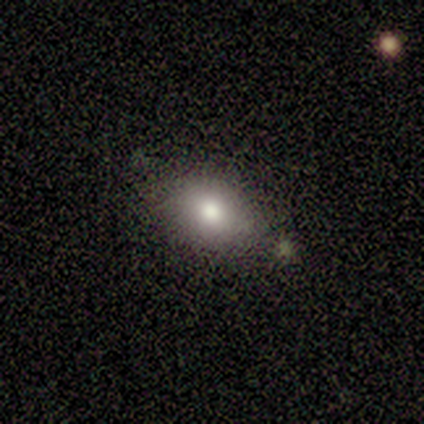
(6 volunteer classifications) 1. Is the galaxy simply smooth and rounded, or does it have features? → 83% smooth, 17% featured or disk, 0% star or artifact.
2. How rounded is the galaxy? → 40% round (tied), 40% in between (tied), 20% cigar-shaped.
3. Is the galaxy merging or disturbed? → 100% none, 0% minor disturbance, 0% major disturbance, 0% merger.